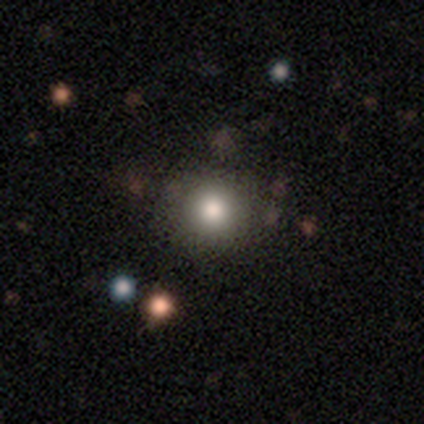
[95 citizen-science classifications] Smooth or featured? 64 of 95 (67%) said smooth. How rounded? 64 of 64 (100%) said round. Merging? 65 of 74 (88%) said none.